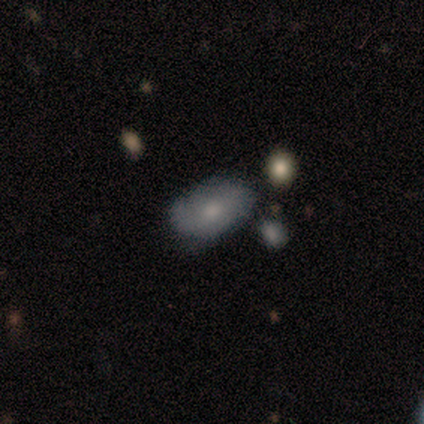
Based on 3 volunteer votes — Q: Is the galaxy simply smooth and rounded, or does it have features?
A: smooth — 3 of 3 (100%).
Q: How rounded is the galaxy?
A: in between — 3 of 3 (100%).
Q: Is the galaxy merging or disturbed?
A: none — 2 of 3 (67%).